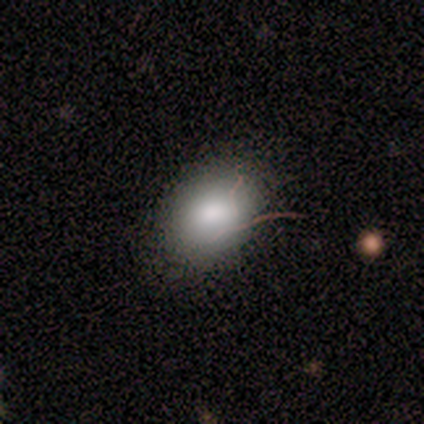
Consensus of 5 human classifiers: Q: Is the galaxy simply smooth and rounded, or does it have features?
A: smooth — 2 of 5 (40%, tied with star or artifact).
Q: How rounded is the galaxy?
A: round — 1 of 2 (50%, tied with in between).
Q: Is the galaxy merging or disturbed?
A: none — 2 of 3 (67%).